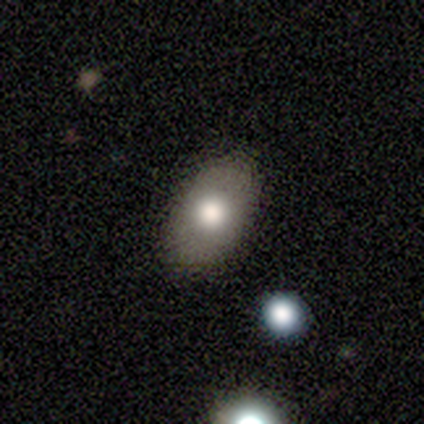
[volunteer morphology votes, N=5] Smooth or featured? 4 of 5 (80%) said smooth. How rounded? 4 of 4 (100%) said in between. Merging? 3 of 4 (75%) said none.